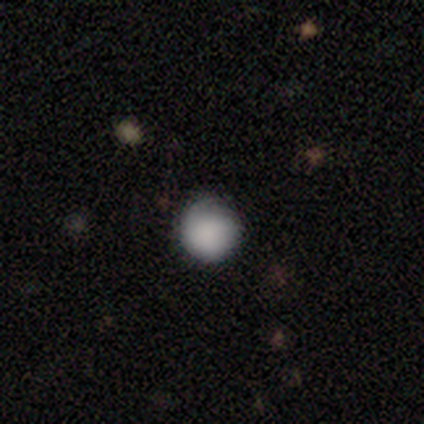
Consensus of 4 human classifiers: Q: Smooth or featured?
A: smooth (100%)
Q: How rounded?
A: round (100%)
Q: Merging?
A: none (75%); runner-up: minor disturbance (25%)